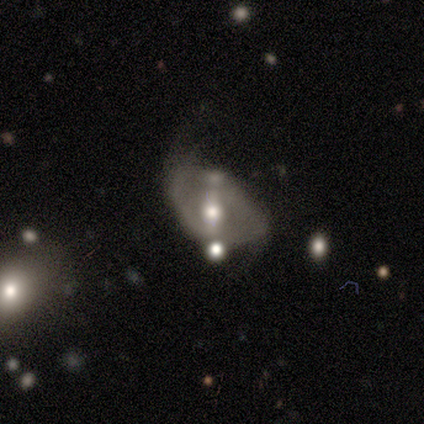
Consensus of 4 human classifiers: Morphology: type=featured or disk (75%); edge-on=no (67%); bar=weak (50%, tied with no); spiral arms=yes (100%); winding=loose (100%); arm count=2 (100%); bulge=moderate (50%, tied with small); merging=minor disturbance (50%).